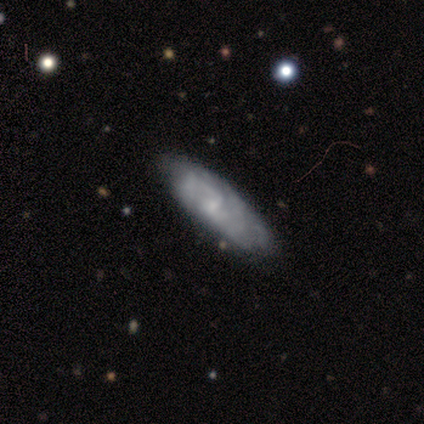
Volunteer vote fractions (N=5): Morphology: type=featured or disk (80%); edge-on=no (100%); bar=weak (50%, tied with no); spiral arms=yes (50%, tied with no); winding=loose (100%); arm count=4 (50%, tied with can't tell); bulge=none (50%); merging=none (80%).